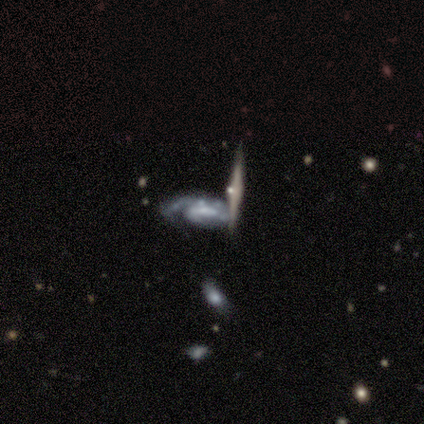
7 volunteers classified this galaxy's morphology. A featured or disk galaxy (71%) with no bar (67%), 1 (67%) tight (67%) spiral arms (100%) and a small central bulge (67%).

Vote fractions:
- Smooth or featured? featured or disk: 71% / smooth: 14% / star or artifact: 14%
- Edge-on disk? no: 60% / yes: 40%
- Bar? no: 67% / weak: 33% / strong: 0%
- Spiral arms? yes: 100% / no: 0%
- Spiral winding? tight: 67% / medium: 33% / loose: 0%
- Spiral arm count? 1: 67% / 3: 33% / 2: 0% / 4: 0% / more than 4: 0% / can't tell: 0%
- Bulge size? small: 67% / none: 33% / dominant: 0% / large: 0% / moderate: 0%
- Merging? none: 33% (tied) / merger: 33% (tied) / minor disturbance: 17% / major disturbance: 17%